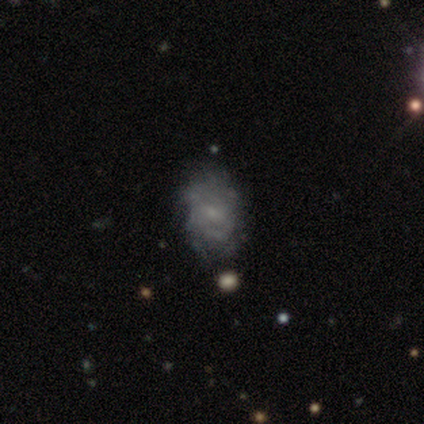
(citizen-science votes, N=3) This is likely a featured or disk galaxy (67%). It is clearly not viewed edge-on (100%). Bar: clearly no (100%). Spiral arm pattern: possibly yes (50%, tied with no). Spiral arm count: clearly can't tell (100%). Spiral winding: clearly medium (100%). Central bulge: possibly moderate (50%, tied with small). Merging: clearly none (100%).